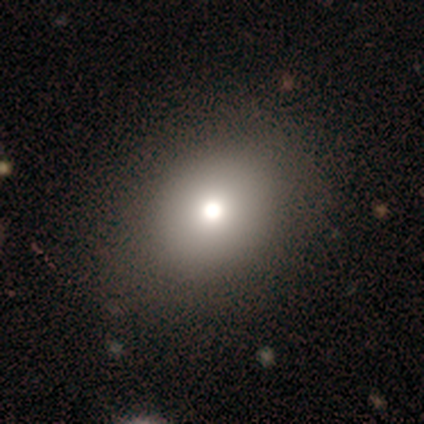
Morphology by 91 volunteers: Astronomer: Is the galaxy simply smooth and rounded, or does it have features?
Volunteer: smooth — 73%.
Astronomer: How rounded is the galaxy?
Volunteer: round — 61% (runner-up: in between, 39%).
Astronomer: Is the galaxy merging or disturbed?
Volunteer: none — 82%.